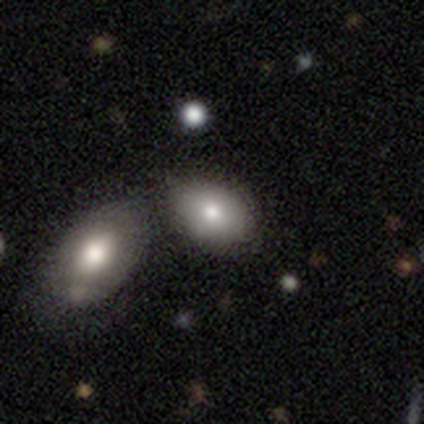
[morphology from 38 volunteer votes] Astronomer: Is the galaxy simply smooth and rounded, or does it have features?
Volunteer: smooth — 74%.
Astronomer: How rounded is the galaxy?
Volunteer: in between — 82%.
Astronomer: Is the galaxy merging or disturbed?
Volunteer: none — 50% (runner-up: merger, 33%).